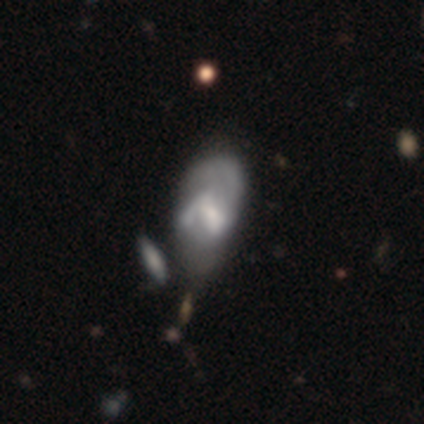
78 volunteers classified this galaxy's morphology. Smooth or featured? 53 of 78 (68%) said featured or disk. Edge-on disk? 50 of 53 (94%) said no. Bar? 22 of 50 (44%) said weak. Spiral arms? 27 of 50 (54%) said no. Bulge size? 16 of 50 (32%) said none. Merging? 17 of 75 (23%) said merger.